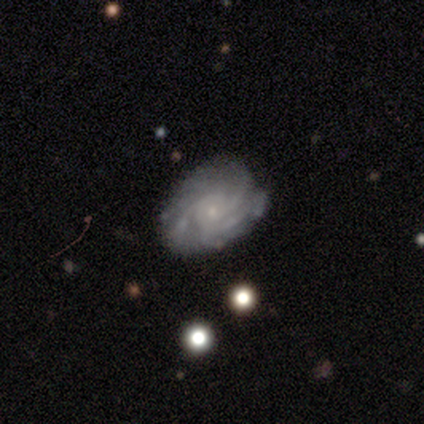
Overall: featured or disk (100%). Edge-on disk: no (80%). Bar: no (75%). Spiral arms: yes (100%). Spiral arm count: 3 (50%; 1 25%). Spiral winding: loose (75%). Bulge size: small (100%). Merging: none (40%, tied with major disturbance).